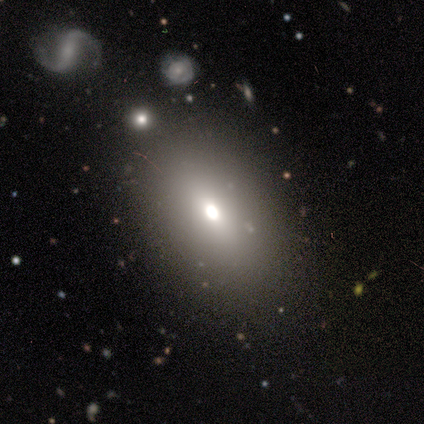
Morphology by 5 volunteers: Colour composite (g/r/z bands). It shows a smooth galaxy with no disk features (80%) that is in between round and cigar-shaped (75%). Merging: none (60%).